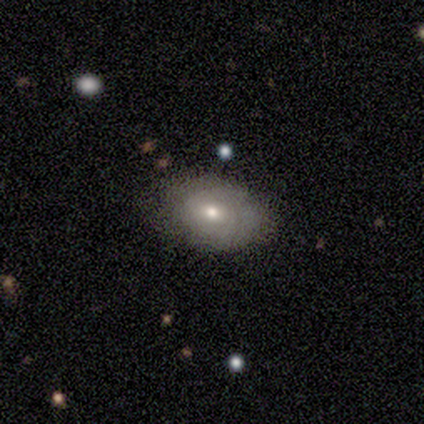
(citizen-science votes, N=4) Smooth or featured: smooth — 75% (featured or disk — 25%)
How rounded: in between — 100%
Merging: none — 75% (merger — 25%)